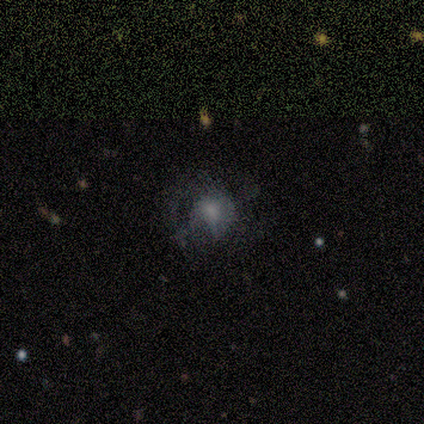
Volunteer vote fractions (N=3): Smooth or featured: star or artifact — 67% (smooth — 33%)